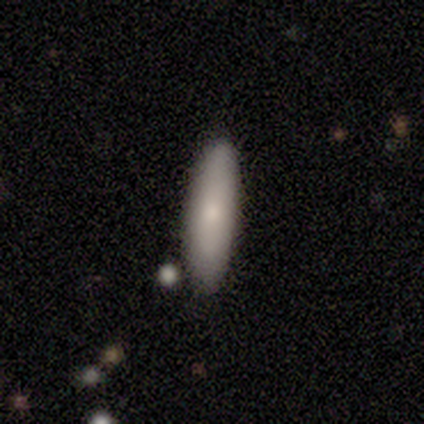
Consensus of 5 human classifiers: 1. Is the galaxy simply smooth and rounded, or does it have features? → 80% smooth, 20% featured or disk, 0% star or artifact.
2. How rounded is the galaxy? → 100% cigar-shaped, 0% round, 0% in between.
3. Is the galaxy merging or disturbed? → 80% none, 20% major disturbance, 0% minor disturbance, 0% merger.